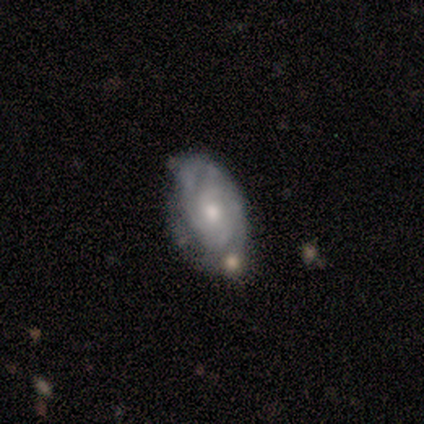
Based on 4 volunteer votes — This is clearly a featured or disk galaxy (100%). It is clearly not viewed edge-on (100%). Bar: likely no (75%). Spiral arm pattern: clearly yes (100%). Spiral arm count: likely can't tell (75%). Spiral winding: possibly tight (50%, tied with medium). Central bulge: likely small (75%). Merging: likely none (75%).